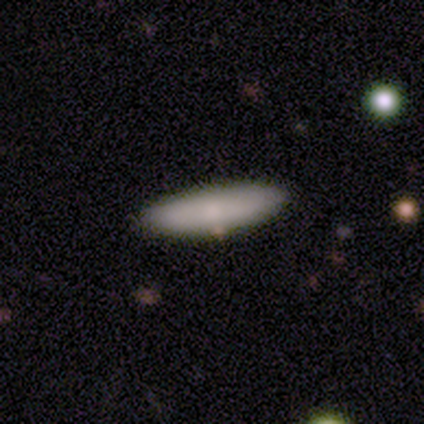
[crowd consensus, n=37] Smooth or featured?
  - smooth: 73% *
  - featured or disk: 24%
  - star or artifact: 3%
How rounded?
  - in between: 48% * (tied)
  - cigar-shaped: 48% * (tied)
  - round: 4%
Merging?
  - none: 83% *
  - minor disturbance: 11%
  - merger: 6%
  - major disturbance: 0%